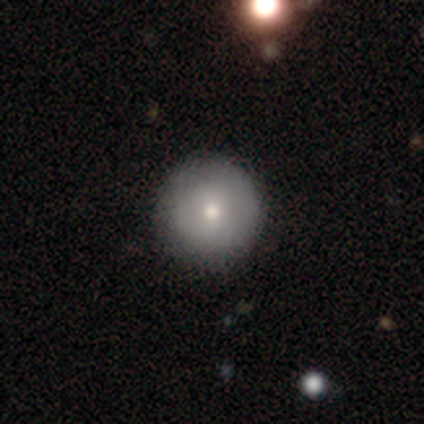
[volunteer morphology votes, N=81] Smooth or featured?
  - smooth: 73% *
  - featured or disk: 22%
  - star or artifact: 5%
How rounded?
  - round: 98% *
  - cigar-shaped: 2%
  - in between: 0%
Merging?
  - none: 48% *
  - minor disturbance: 3%
  - major disturbance: 0%
  - merger: 0%